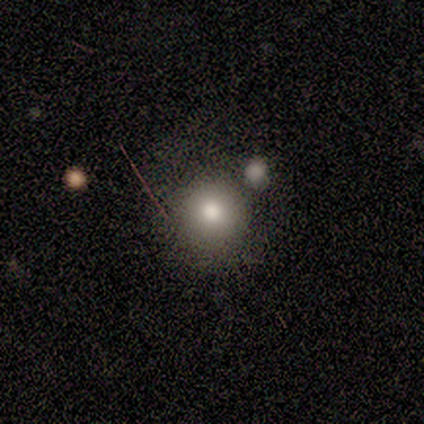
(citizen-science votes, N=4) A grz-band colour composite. It shows a smooth galaxy with no disk features (100%) that is round (100%). Merging: none (75%).